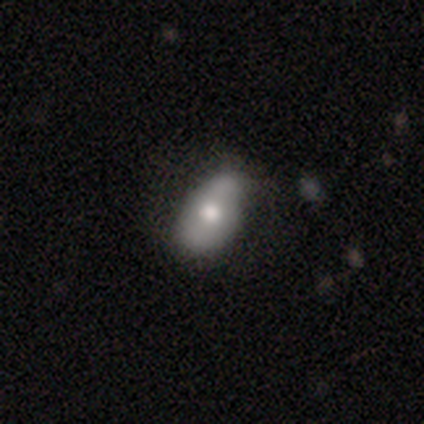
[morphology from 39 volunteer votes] Overall: smooth (56%; featured or disk 38%). How rounded: in between (91%). Merging: none (73%).